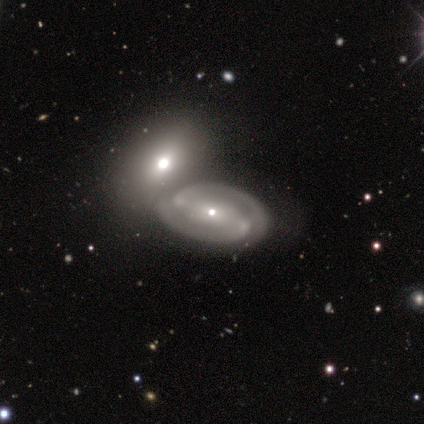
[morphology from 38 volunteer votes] Smooth or featured: featured or disk — 89% (smooth — 11%)
Edge-on disk: no — 94% (yes — 6%)
Bar: strong — 53% (no — 25%)
Spiral arms: yes — 97% (no — 3%)
Spiral winding: tight — 48% (medium — 39%)
Spiral arm count: 2 — 100%
Bulge size: small — 78% (moderate — 22%)
Merging: merger — 53% (none — 34%)